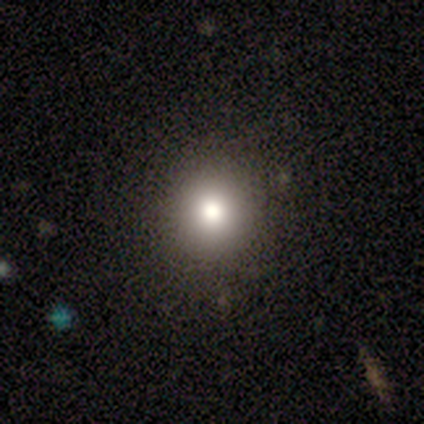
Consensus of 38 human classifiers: Volunteers were most divided on "smooth or featured": smooth: 79%, star or artifact: 13%, featured or disk: 8%. More confident: merging — none (91%); how rounded — round (90%).